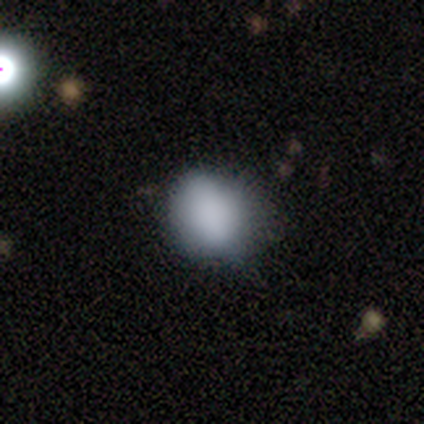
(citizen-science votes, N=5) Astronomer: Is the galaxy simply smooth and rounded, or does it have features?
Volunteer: smooth — 80%.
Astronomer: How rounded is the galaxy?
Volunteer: round — 50%, tied with in between at 50%.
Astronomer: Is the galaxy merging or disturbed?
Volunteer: none — 80%.